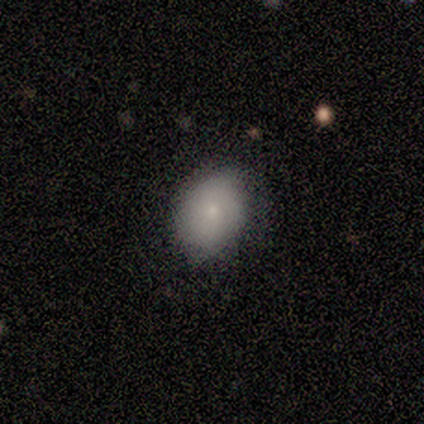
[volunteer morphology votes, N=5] Q: Smooth or featured?
A: smooth (80%); runner-up: featured or disk (20%)
Q: How rounded?
A: round (50%); tied with: in between (50%)
Q: Merging?
A: none (60%); runner-up: minor disturbance (40%)